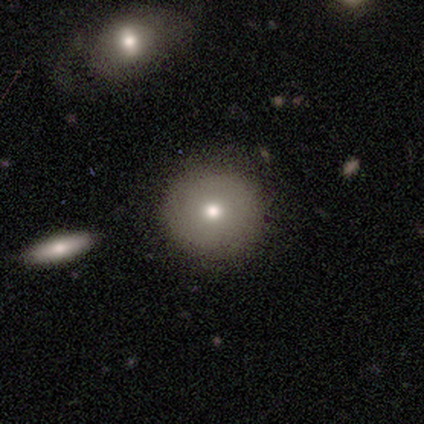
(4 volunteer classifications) smooth_or_featured: smooth (p=1.00)
how_rounded: round (p=1.00)
merging: none (p=1.00)